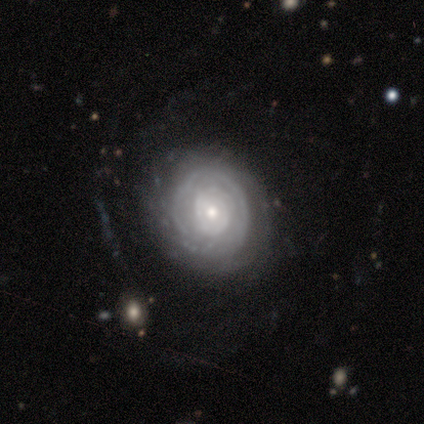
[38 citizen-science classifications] smooth-or-featured: featured or disk: 89% | smooth: 8% | star or artifact: 3%
  disk-edge-on: no: 94% | yes: 6%
    bar: no: 81% | weak: 12% | strong: 6%
    has-spiral-arms: yes: 75% | no: 25%
      spiral-winding: tight: 71% | medium: 21% | loose: 8%
      spiral-arm-count: can't tell: 58% | 4: 17% | 3: 8% | more than 4: 8% | 1: 4% | 2: 4%
    bulge-size: small: 56% | moderate: 41% | none: 3% | dominant: 0% | large: 0%
  merging: none: 76% | minor disturbance: 19% | major disturbance: 5% | merger: 0%